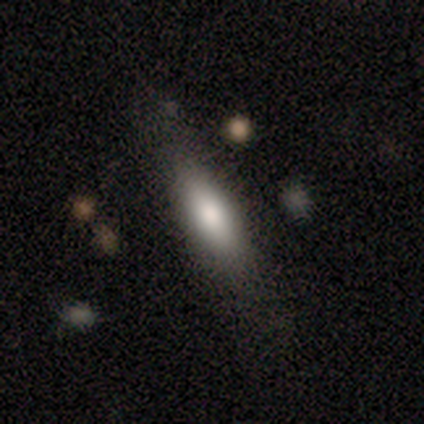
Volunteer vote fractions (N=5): Smooth or featured: smooth — 80% (featured or disk — 20%)
How rounded: in between — 100%
Merging: none — 100%